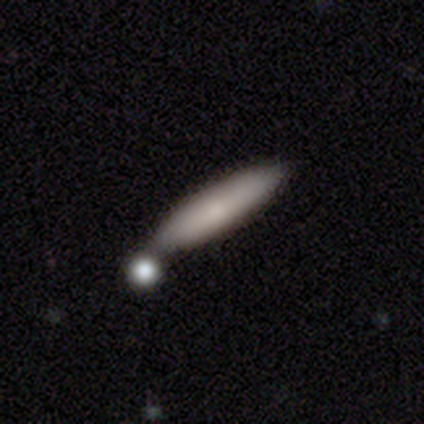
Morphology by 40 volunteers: This appears to be a smooth galaxy with no disk features (75%) that is cigar-shaped (100%). Merging: none (51%).